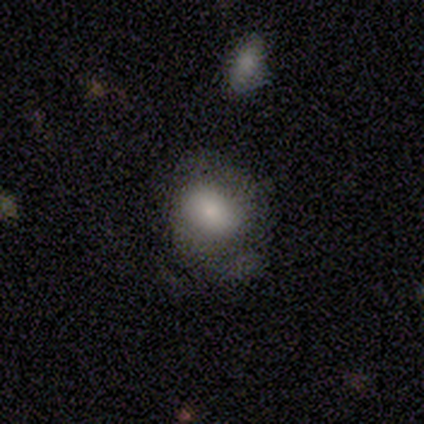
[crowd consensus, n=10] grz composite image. It shows a smooth galaxy with no disk features (90%) that is in between round and cigar-shaped (56%). Merging: none (50%).